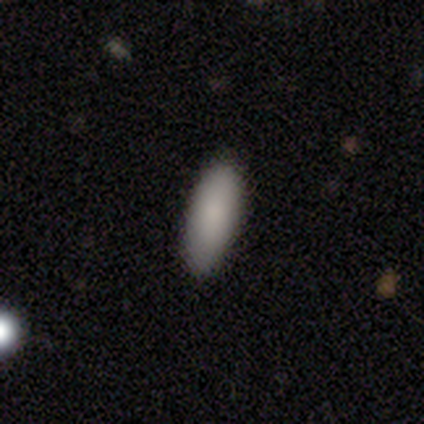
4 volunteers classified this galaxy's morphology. Consensus on every question: smooth or featured — smooth (100%); how rounded — in between (100%); merging — none (100%).